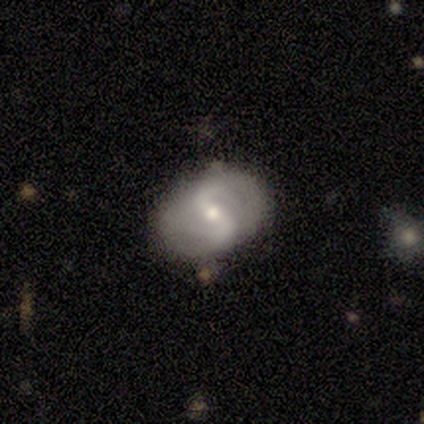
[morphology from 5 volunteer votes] A featured or disk galaxy (80%) with no bar (75%), 2 (100%) loose (100%) spiral arms (100%) and a small central bulge (100%). Merging: none (60%).